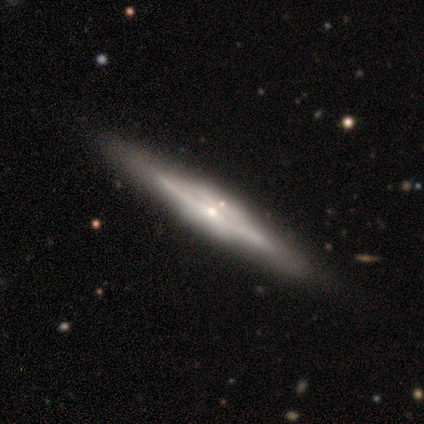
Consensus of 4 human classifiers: Smooth or featured? featured or disk (100%)
Edge-on disk? yes (75%)
Edge-on bulge? none (67%)
Merging? none (75%)